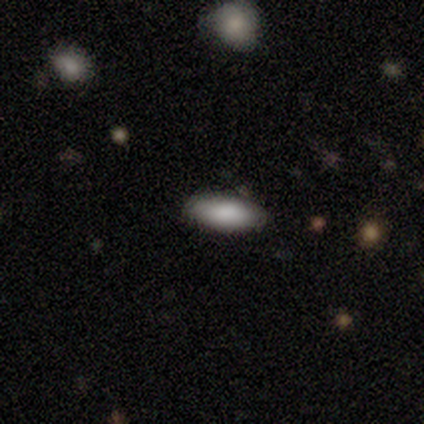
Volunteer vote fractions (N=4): Overall: smooth (75%). How rounded: in between (100%). Merging: none (100%).